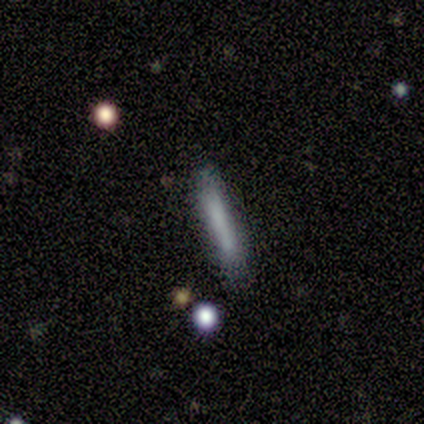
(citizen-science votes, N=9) Volunteers were most divided on "merging": none: 75%, minor disturbance: 12%, merger: 12%, major disturbance: 0%. More confident: how rounded — cigar-shaped (100%); smooth or featured — smooth (89%).